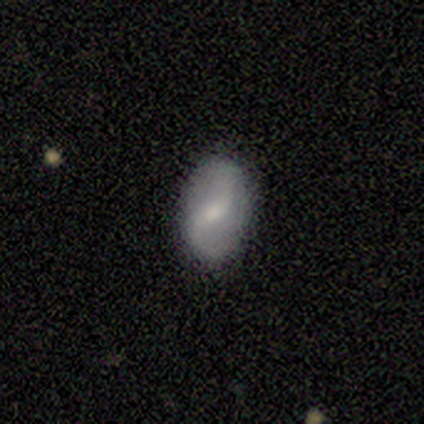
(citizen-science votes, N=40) Q: Smooth or featured?
A: featured or disk (72%); runner-up: smooth (28%)
Q: Edge-on disk?
A: no (97%); runner-up: yes (3%)
Q: Bar?
A: weak (54%); runner-up: strong (25%)
Q: Spiral arms?
A: yes (96%); runner-up: no (4%)
Q: Spiral winding?
A: loose (78%); runner-up: medium (22%)
Q: Spiral arm count?
A: 2 (93%); runner-up: 1 (4%)
Q: Bulge size?
A: moderate (46%); tied with: small (46%)
Q: Merging?
A: none (90%); runner-up: minor disturbance (8%)